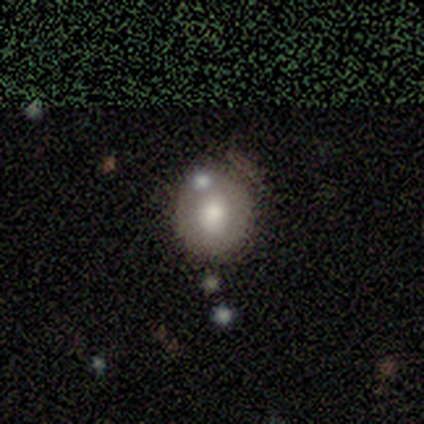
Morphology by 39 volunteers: smooth_or_featured: smooth (p=0.56) [alt: featured or disk p=0.36]
how_rounded: round (p=0.77) [alt: in between p=0.23]
merging: none (p=0.47) [alt: minor disturbance p=0.17]